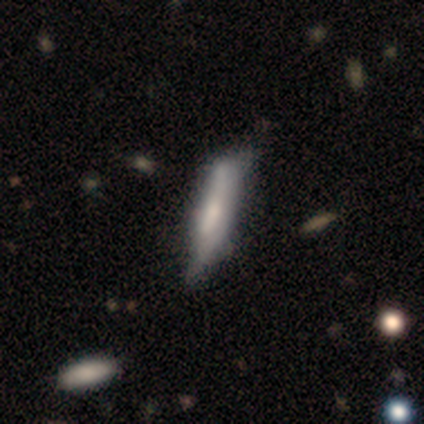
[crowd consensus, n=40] This appears to be a featured or disk galaxy (50%) viewed edge-on (60%) with a boxy central bulge (33%, tied with none and rounded). Merging: minor disturbance (23%).